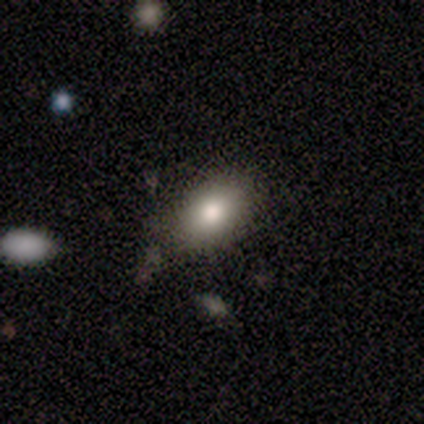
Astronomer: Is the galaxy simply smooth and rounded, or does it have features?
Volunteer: smooth — 67%.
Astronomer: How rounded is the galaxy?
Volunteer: in between — 100%.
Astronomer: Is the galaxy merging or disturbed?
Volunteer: none — 40%, tied with minor disturbance at 40%.